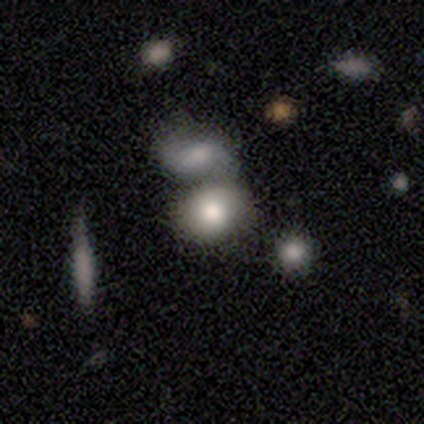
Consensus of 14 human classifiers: A smooth galaxy with no disk features (64%) that is in between round and cigar-shaped (56%).

Vote fractions:
- Smooth or featured? smooth: 64% / featured or disk: 21% / star or artifact: 14%
- How rounded? in between: 56% / round: 44% / cigar-shaped: 0%
- Merging? none: 50% / merger: 42% / minor disturbance: 8% / major disturbance: 0%